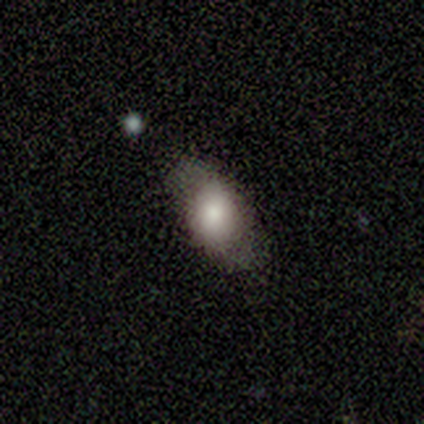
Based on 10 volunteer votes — A smooth galaxy with no disk features (70%) that is in between round and cigar-shaped (71%).

Vote fractions:
- Smooth or featured? smooth: 70% / featured or disk: 30% / star or artifact: 0%
- How rounded? in between: 71% / round: 29% / cigar-shaped: 0%
- Merging? none: 90% / minor disturbance: 10% / major disturbance: 0% / merger: 0%